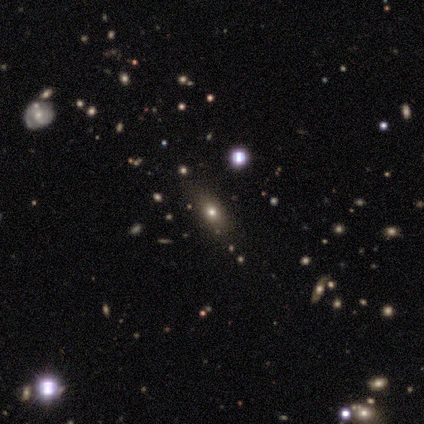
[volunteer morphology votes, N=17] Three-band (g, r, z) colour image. It shows a smooth galaxy with no disk features (71%) that is in between round and cigar-shaped (67%). Merging: none (92%).